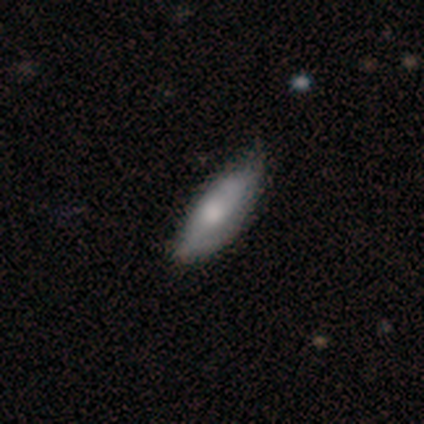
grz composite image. It shows a smooth galaxy with no disk features (69%) that is in between round and cigar-shaped (52%). Merging: none (62%).